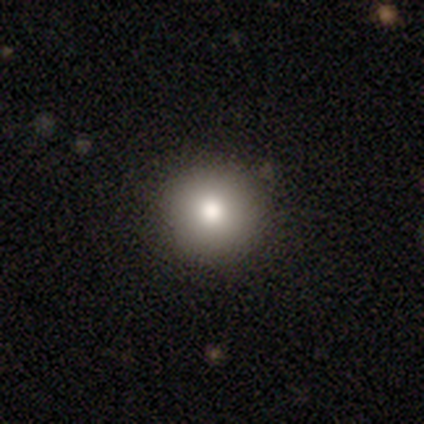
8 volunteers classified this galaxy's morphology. Smooth or featured?
  - smooth: 100% *
  - featured or disk: 0%
  - star or artifact: 0%
How rounded?
  - round: 100% *
  - in between: 0%
  - cigar-shaped: 0%
Merging?
  - none: 100% *
  - minor disturbance: 0%
  - major disturbance: 0%
  - merger: 0%